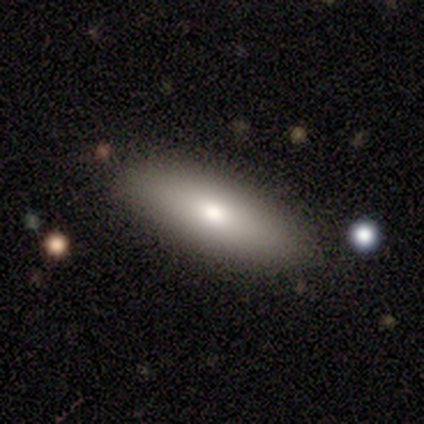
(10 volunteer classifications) Morphology: type=featured or disk (60%); edge-on=no (67%); bar=no (100%); spiral arms=no (100%); bulge=moderate (100%); merging=none (100%).